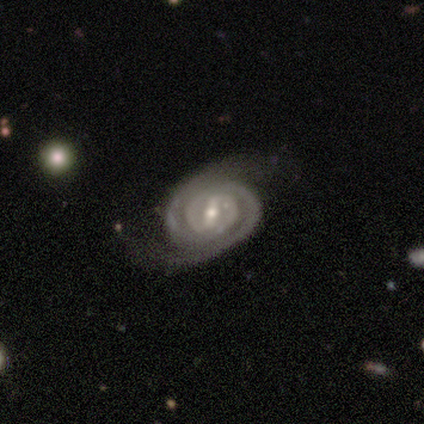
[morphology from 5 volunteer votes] Smooth or featured: featured or disk — 80% (star or artifact — 20%)
Edge-on disk: no — 75% (yes — 25%)
Bar: strong — 67% (weak — 33%)
Spiral arms: yes — 67% (no — 33%)
Spiral winding: tight — 100%
Spiral arm count: 2 — 100%
Bulge size: small — 67% (large — 33%)
Merging: none — 75% (merger — 25%)